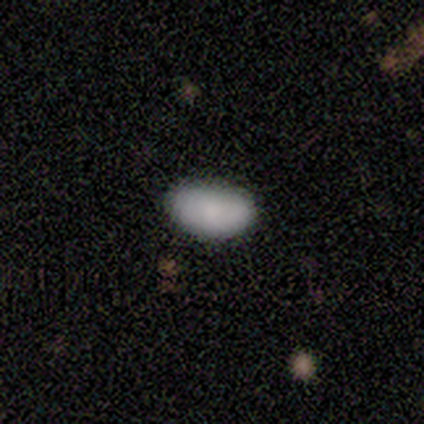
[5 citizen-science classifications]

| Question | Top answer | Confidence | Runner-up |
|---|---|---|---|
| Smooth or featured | smooth | 100% | — |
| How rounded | in between | 100% | — |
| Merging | none | 100% | — |